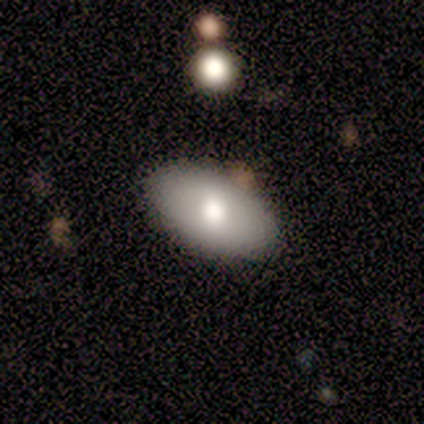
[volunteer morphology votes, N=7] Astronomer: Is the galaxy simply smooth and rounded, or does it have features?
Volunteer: featured or disk — 57%.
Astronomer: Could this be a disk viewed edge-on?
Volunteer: no — 100%.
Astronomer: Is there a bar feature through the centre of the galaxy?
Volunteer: no — 75%.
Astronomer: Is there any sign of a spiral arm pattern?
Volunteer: no — 100%.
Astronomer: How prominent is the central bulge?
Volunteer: large — 50%, tied with moderate at 50%.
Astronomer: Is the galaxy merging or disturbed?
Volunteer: none — 100%.